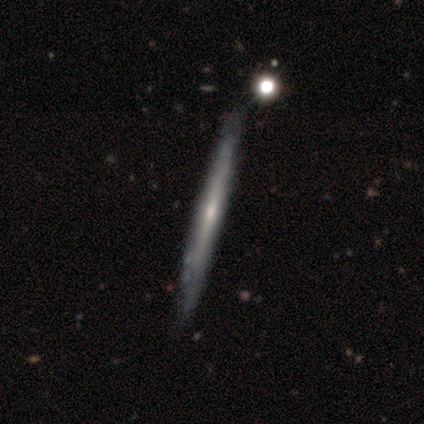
Smooth or featured?
  - featured or disk: 66% *
  - smooth: 32%
  - star or artifact: 3%
Edge-on disk?
  - yes: 96% *
  - no: 4%
Edge-on bulge?
  - none: 50% * (tied)
  - rounded: 50% * (tied)
  - boxy: 0%
Merging?
  - none: 86% *
  - minor disturbance: 11%
  - major disturbance: 3%
  - merger: 0%